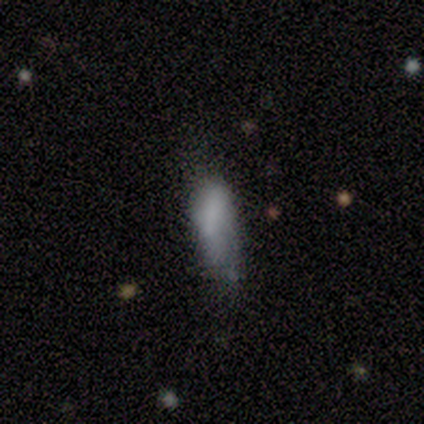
Smooth or featured? 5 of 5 (100%) said smooth. How rounded? 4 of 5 (80%) said in between. Merging? 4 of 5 (80%) said minor disturbance.